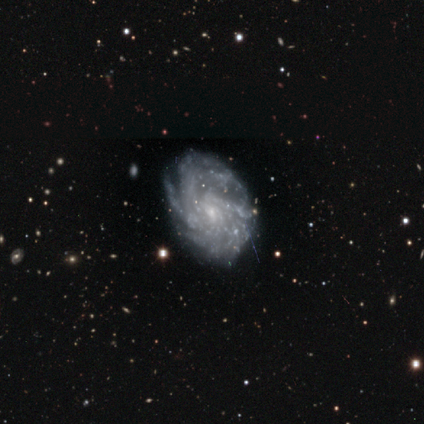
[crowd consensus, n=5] Volunteers were most divided on "spiral arm count" (4-way tie): 2: 25%, 4: 25%, more than 4: 25%, can't tell: 25%, 1: 0%, 3: 0%. More confident: smooth or featured — featured or disk (100%); edge-on disk — no (100%); spiral winding — tight (100%); bulge size — small (100%); merging — none (100%); spiral arms — yes (80%); bar — no (60%).